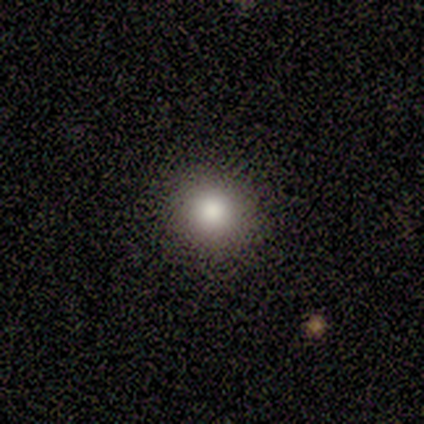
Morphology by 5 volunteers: This appears to be a smooth galaxy with no disk features (100%) that is round (80%). Merging: none (100%).